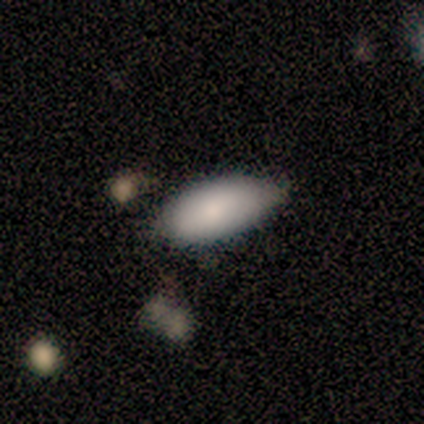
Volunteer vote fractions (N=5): Volunteers were most divided on "merging" (2-way tie): none: 40%, minor disturbance: 40%, major disturbance: 20%, merger: 0%. More confident: smooth or featured — smooth (100%); how rounded — in between (100%).